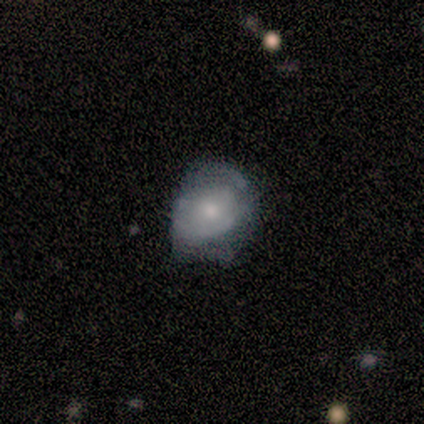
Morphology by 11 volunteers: Smooth or featured? 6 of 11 (55%) said featured or disk. Edge-on disk? 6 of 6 (100%) said no. Bar? 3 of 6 (50%, tied with no) said weak. Spiral arms? 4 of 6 (67%) said yes. Spiral winding? 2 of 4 (50%, tied with medium) said tight. Spiral arm count? 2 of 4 (50%) said 2. Bulge size? 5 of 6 (83%) said moderate. Merging? 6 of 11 (55%) said minor disturbance.